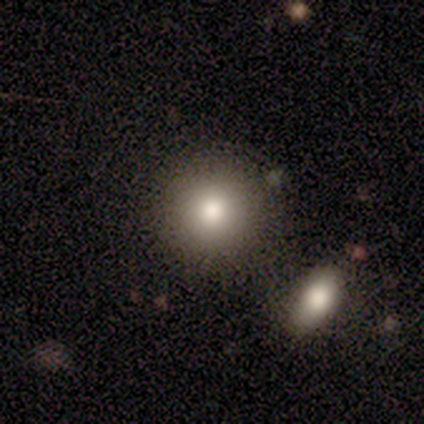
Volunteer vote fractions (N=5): A smooth galaxy with no disk features (100%) that is round (100%).

Vote fractions:
- Smooth or featured? smooth: 100% / featured or disk: 0% / star or artifact: 0%
- How rounded? round: 100% / in between: 0% / cigar-shaped: 0%
- Merging? none: 100% / minor disturbance: 0% / major disturbance: 0% / merger: 0%